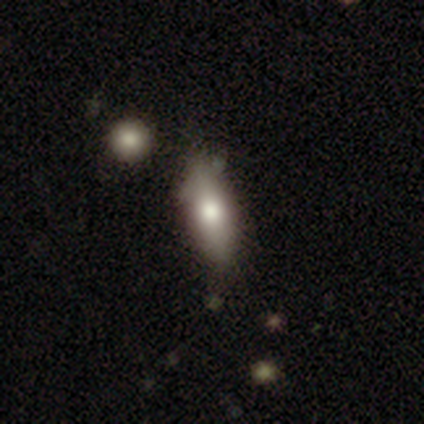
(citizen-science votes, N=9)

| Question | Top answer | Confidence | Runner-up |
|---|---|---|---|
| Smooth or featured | smooth | 67% | featured or disk (33%) |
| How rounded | in between | 67% | cigar-shaped (33%) |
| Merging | none | 67% | merger (22%) |